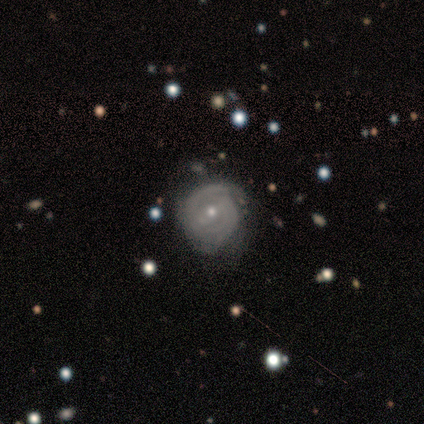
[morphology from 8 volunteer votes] Smooth or featured? featured or disk (88%)
Edge-on disk? no (86%)
Bar? weak (50%)
Spiral arms? yes (83%)
Spiral winding? tight (60%)
Spiral arm count? 2 (80%)
Bulge size? moderate (50%, tied with small)
Merging? minor disturbance (50%)